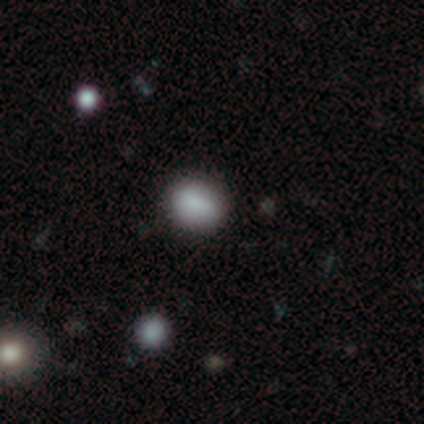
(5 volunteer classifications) Q: Smooth or featured?
A: smooth (100%)
Q: How rounded?
A: in between (80%); runner-up: round (20%)
Q: Merging?
A: none (80%); runner-up: minor disturbance (20%)